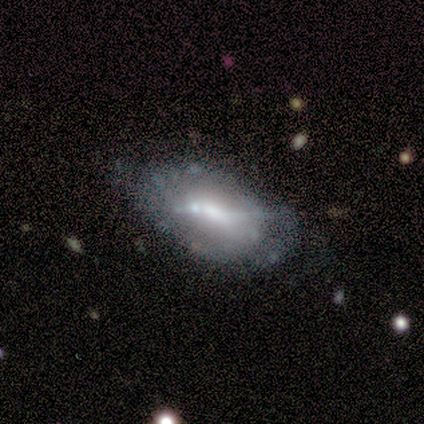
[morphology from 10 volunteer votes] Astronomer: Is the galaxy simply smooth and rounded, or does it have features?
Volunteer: featured or disk — 80%.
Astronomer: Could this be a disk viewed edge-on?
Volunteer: no — 88%.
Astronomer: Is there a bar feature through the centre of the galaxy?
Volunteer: no — 71%.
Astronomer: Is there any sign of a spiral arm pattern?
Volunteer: no — 86%.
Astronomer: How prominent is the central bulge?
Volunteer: small — 57% (runner-up: moderate, 43%).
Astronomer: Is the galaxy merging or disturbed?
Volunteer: none — 67%.